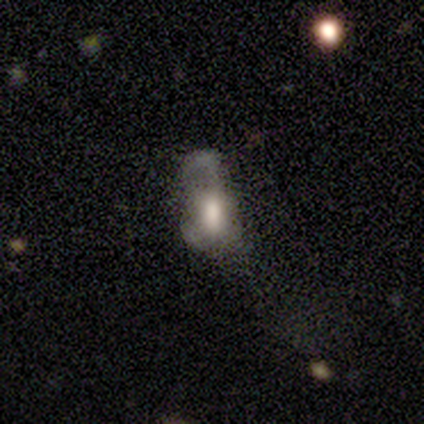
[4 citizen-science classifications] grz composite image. It shows a featured or disk galaxy (50%) with a strong bar (50%, tied with no), no spiral arms (100%) and a moderate central bulge (100%). Merging: major disturbance (100%).